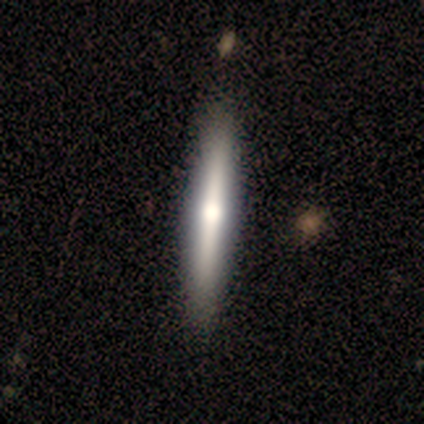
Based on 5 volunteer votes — Morphology: type=featured or disk (60%); edge-on=yes (100%); edge-on bulge=rounded (100%); merging=none (100%).